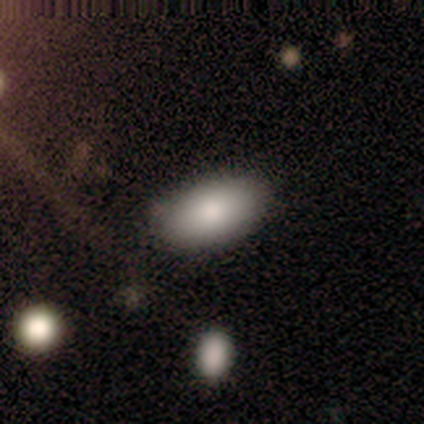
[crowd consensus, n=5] Smooth or featured? smooth (100%)
How rounded? in between (80%)
Merging? none (100%)